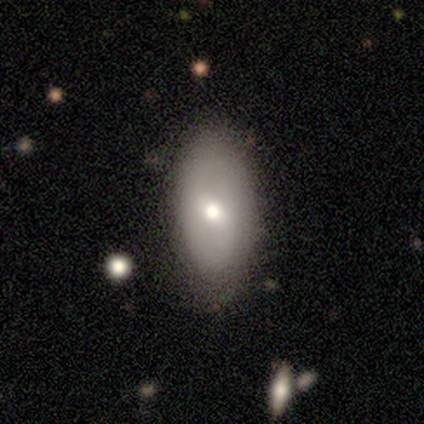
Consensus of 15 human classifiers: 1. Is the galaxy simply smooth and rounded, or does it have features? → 67% smooth, 27% featured or disk, 7% star or artifact.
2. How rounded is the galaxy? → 80% in between, 10% round, 10% cigar-shaped.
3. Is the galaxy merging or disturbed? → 71% none, 29% minor disturbance, 0% major disturbance, 0% merger.